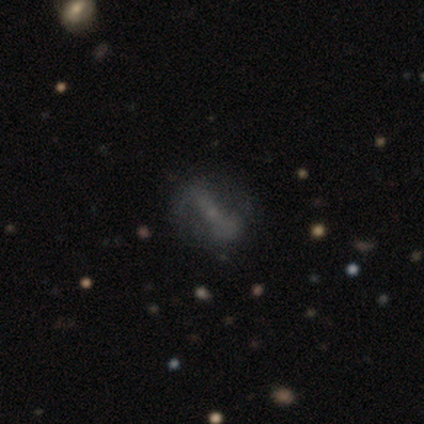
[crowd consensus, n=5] This appears to be a featured or disk galaxy (80%) with a strong bar (50%), no spiral arms (75%) and no central bulge (75%). Merging: none (75%).